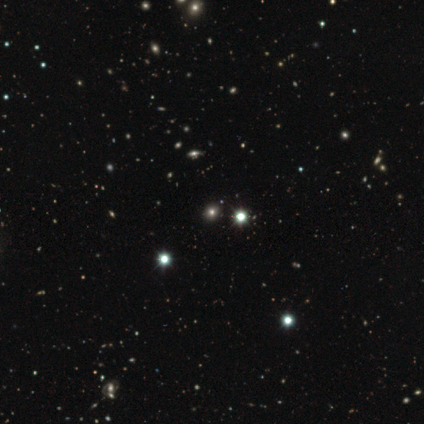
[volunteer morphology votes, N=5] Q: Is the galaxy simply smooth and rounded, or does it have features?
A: star or artifact — 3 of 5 (60%).